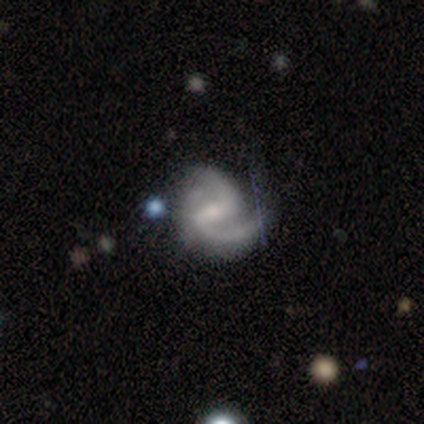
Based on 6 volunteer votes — Overall: featured or disk (100%). Edge-on disk: no (100%). Bar: weak (50%; no 33%). Spiral arms: yes (100%). Spiral arm count: 2 (100%). Spiral winding: medium (50%, tied with loose). Bulge size: small (67%; moderate 33%). Merging: none (50%; minor disturbance 33%).